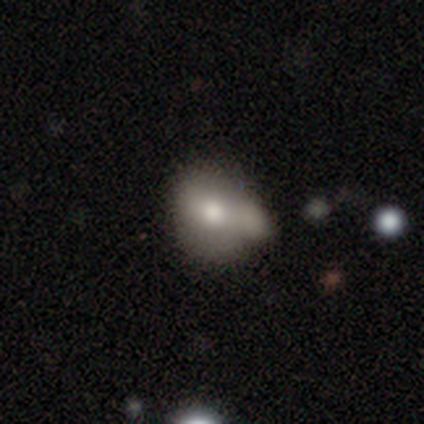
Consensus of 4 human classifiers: Morphology: type=smooth (50%, tied with featured or disk); roundness=round (50%, tied with in between); merging=minor disturbance (75%).